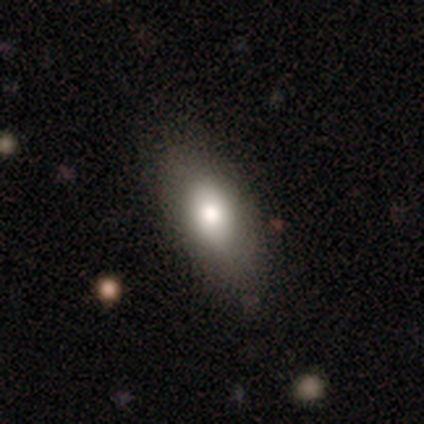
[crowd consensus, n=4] Smooth or featured? smooth (100%)
How rounded? in between (100%)
Merging? none (100%)